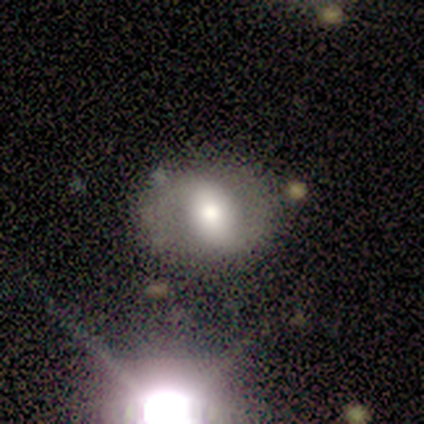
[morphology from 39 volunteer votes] type=featured or disk (51%); edge-on=no (100%); bar=strong (35%, tied with weak); spiral arms=yes (70%); winding=medium (50%); arm count=2 (79%); bulge=large (50%); merging=none (80%).